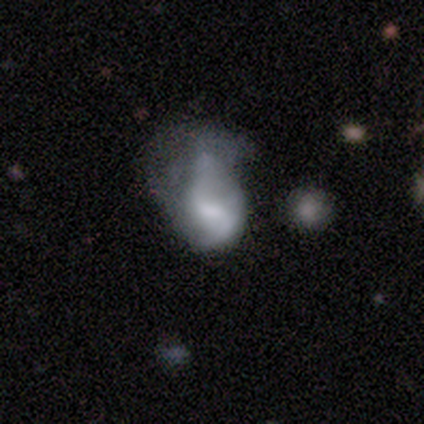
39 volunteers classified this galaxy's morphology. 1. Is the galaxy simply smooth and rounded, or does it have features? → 56% featured or disk, 28% smooth, 15% star or artifact.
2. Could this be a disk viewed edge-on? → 100% no, 0% yes.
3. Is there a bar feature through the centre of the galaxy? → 45% weak, 32% no, 23% strong.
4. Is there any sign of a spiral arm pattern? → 55% no, 45% yes.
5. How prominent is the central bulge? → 36% moderate, 23% large, 18% small, 18% none, 5% dominant.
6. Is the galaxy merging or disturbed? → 48% major disturbance, 15% minor disturbance, 9% merger, 3% none.